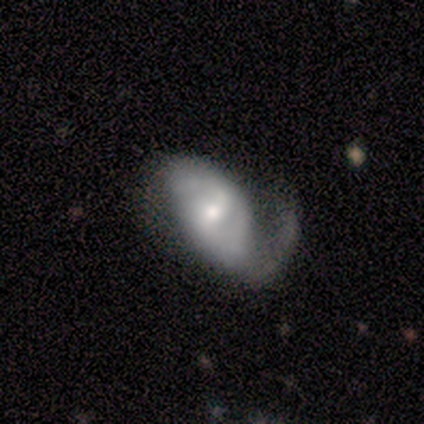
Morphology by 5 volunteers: A featured or disk galaxy (60%) with no bar (67%), 2 (67%) medium (67%) spiral arms (100%) and a small central bulge (67%). Merging: minor disturbance (60%).